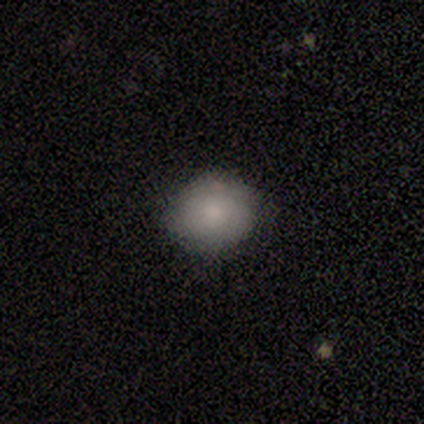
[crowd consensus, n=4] Q: Smooth or featured?
A: smooth (100%)
Q: How rounded?
A: round (100%)
Q: Merging?
A: none (100%)